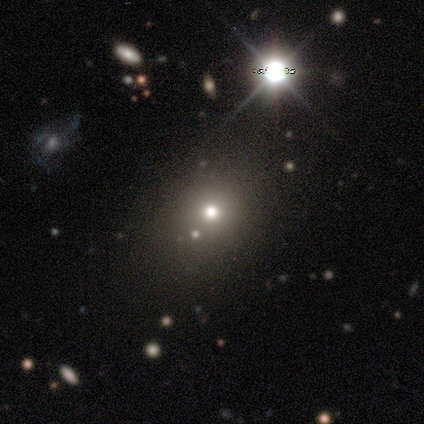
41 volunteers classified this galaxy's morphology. smooth_or_featured: smooth (p=0.56) [alt: star or artifact p=0.34]
how_rounded: round (p=0.65) [alt: in between p=0.35]
merging: none (p=0.63) [alt: minor disturbance p=0.19]